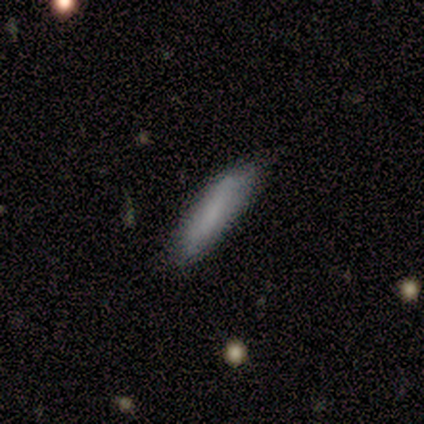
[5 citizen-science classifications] smooth 80%, featured or disk 20%, star or artifact 0%. Down the decision tree: how rounded — cigar-shaped (75%); merging — minor disturbance (80%).